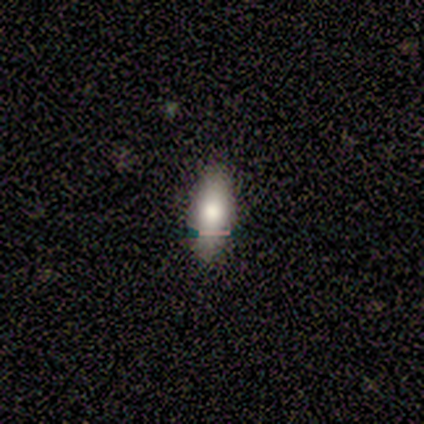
Overall: smooth (80%). How rounded: in between (75%). Merging: none (100%).